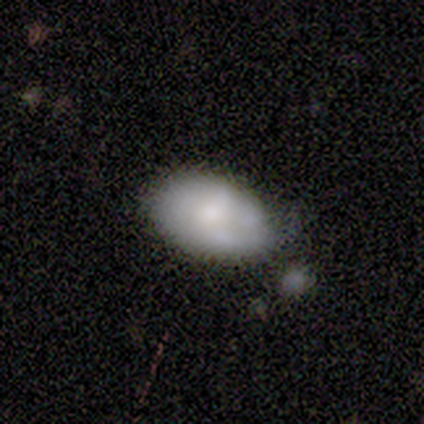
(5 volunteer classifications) A smooth galaxy with no disk features (80%) that is in between round and cigar-shaped (75%).

Vote fractions:
- Smooth or featured? smooth: 80% / featured or disk: 20% / star or artifact: 0%
- How rounded? in between: 75% / round: 25% / cigar-shaped: 0%
- Merging? minor disturbance: 60% / none: 20% / major disturbance: 20% / merger: 0%